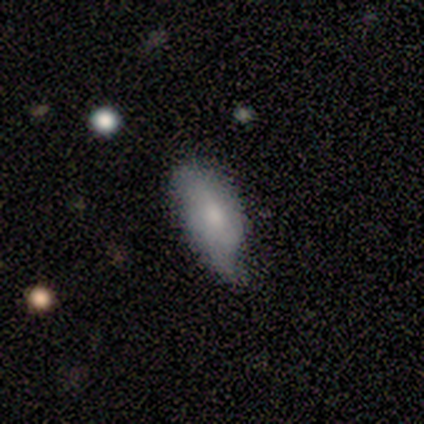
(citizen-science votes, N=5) Morphology: type=smooth (80%); roundness=in between (100%); merging=minor disturbance (60%).